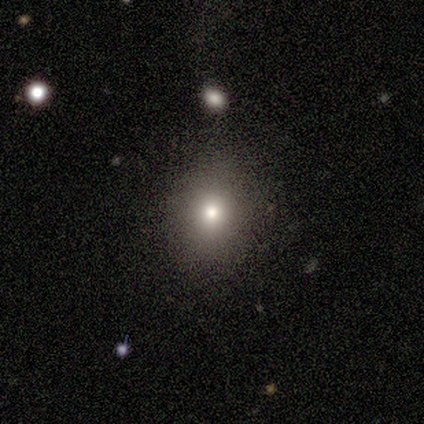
Smooth or featured? smooth (79%)
How rounded? round (67%)
Merging? none (88%)